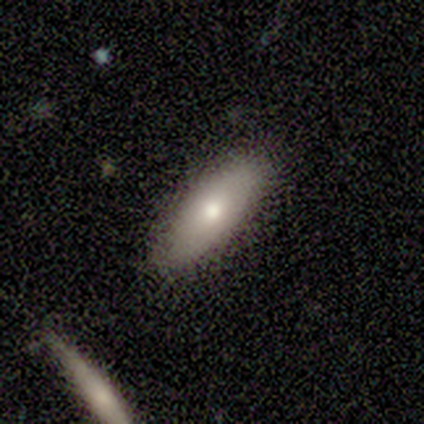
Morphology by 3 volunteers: This appears to be a smooth galaxy with no disk features (100%) that is in between round and cigar-shaped (67%). Merging: none (67%).